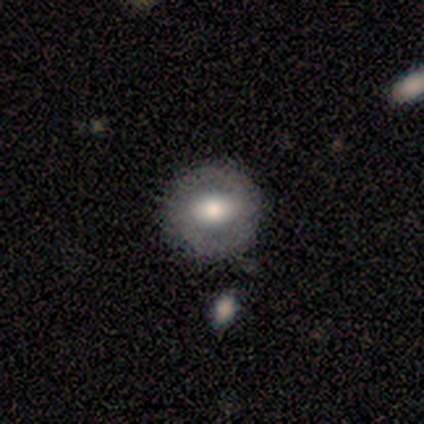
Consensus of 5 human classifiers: featured or disk 100%, smooth 0%, star or artifact 0%. Down the decision tree: edge-on disk — no (100%); bar — weak (60%); spiral arms — yes (60%); spiral arm count — 2 (100%); spiral winding — tight (67%); bulge size — moderate (60%); merging — none (80%).